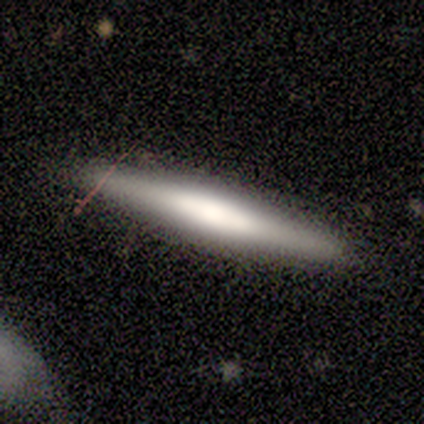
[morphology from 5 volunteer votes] smooth_or_featured: featured or disk (p=0.60) [alt: smooth p=0.40]
disk_edge_on: yes (p=1.00)
edge_on_bulge: none (p=0.67) [alt: rounded p=0.33]
merging: none (p=1.00)